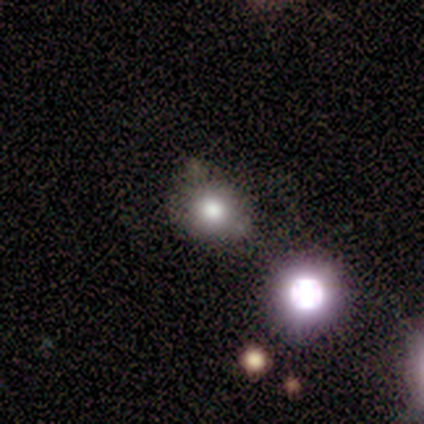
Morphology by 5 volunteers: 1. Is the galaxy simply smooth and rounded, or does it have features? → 80% smooth, 20% featured or disk, 0% star or artifact.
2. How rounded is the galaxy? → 75% round, 25% in between, 0% cigar-shaped.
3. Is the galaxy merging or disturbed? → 80% none, 20% major disturbance, 0% minor disturbance, 0% merger.